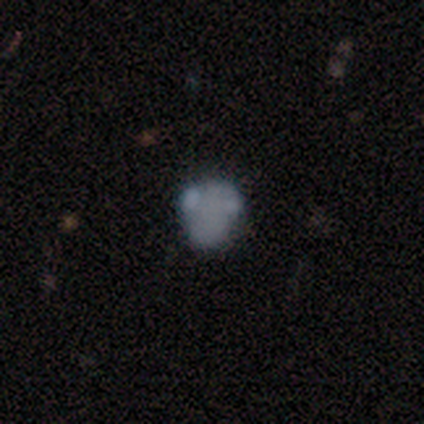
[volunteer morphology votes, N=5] smooth 80%, star or artifact 20%, featured or disk 0%. Down the decision tree: how rounded — round (50%, tied with in between); merging — minor disturbance (50%).